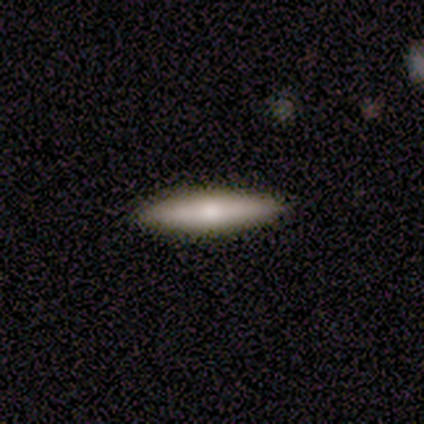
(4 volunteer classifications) A smooth galaxy with no disk features (75%) that is cigar-shaped (67%). Merging: none (100%).